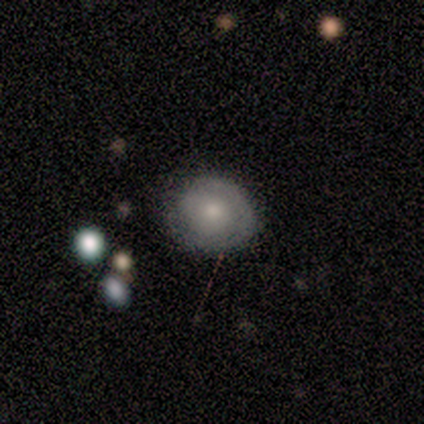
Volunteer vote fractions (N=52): Smooth or featured?
  - featured or disk: 60% *
  - smooth: 35%
  - star or artifact: 6%
Edge-on disk?
  - no: 100% *
  - yes: 0%
Bar?
  - no: 94% *
  - weak: 6%
  - strong: 0%
Spiral arms?
  - yes: 77% *
  - no: 23%
Spiral winding?
  - tight: 75% *
  - medium: 17%
  - loose: 8%
Spiral arm count?
  - 1: 42% * (tied)
  - can't tell: 42% * (tied)
  - 2: 17%
  - 3: 0%
  - 4: 0%
  - more than 4: 0%
Bulge size?
  - moderate: 58% *
  - small: 35%
  - large: 6%
  - dominant: 0%
  - none: 0%
Merging?
  - none: 78% *
  - minor disturbance: 20%
  - major disturbance: 2%
  - merger: 0%